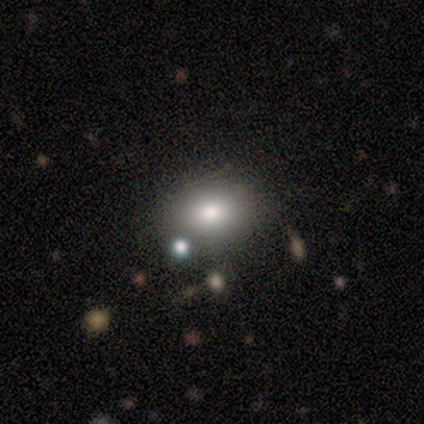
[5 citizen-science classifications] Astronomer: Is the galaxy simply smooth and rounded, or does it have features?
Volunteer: smooth — 80%.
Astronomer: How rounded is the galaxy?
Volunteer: in between — 100%.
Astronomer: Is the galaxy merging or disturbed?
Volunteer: none — 75%.